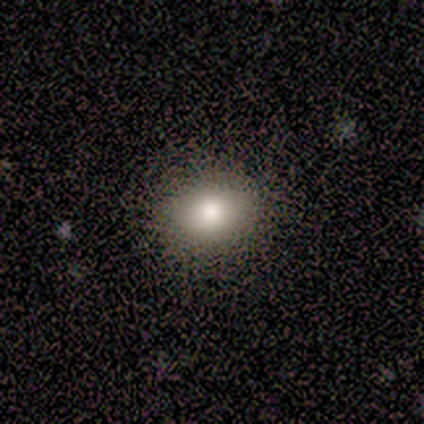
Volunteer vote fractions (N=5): Smooth or featured? smooth (100%)
How rounded? in between (60%)
Merging? none (80%)